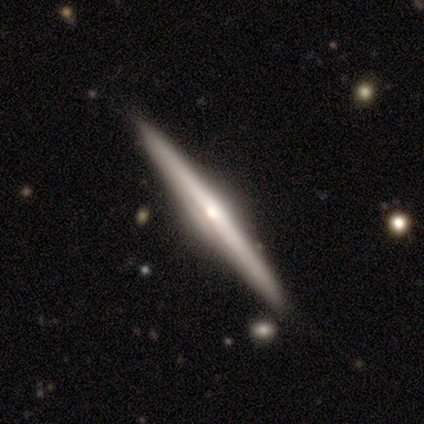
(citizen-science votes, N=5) Q: Smooth or featured?
A: featured or disk (80%); runner-up: smooth (20%)
Q: Edge-on disk?
A: yes (100%)
Q: Edge-on bulge?
A: rounded (75%); runner-up: boxy (25%)
Q: Merging?
A: none (100%)